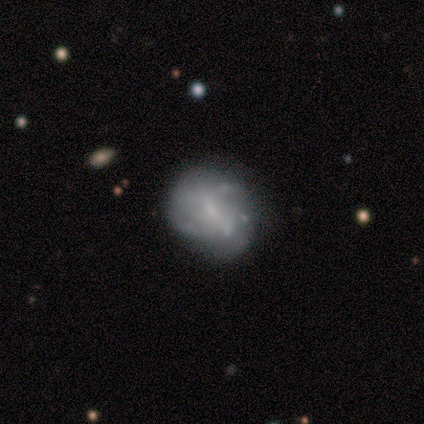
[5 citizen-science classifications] Smooth or featured? 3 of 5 (60%) said smooth. How rounded? 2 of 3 (67%) said in between. Merging? 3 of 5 (60%) said none.